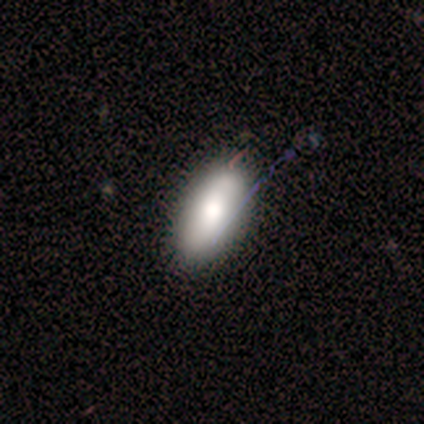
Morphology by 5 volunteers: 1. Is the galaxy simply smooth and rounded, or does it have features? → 80% smooth, 20% featured or disk, 0% star or artifact.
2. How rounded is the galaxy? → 100% in between, 0% round, 0% cigar-shaped.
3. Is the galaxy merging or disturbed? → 80% none, 20% minor disturbance, 0% major disturbance, 0% merger.